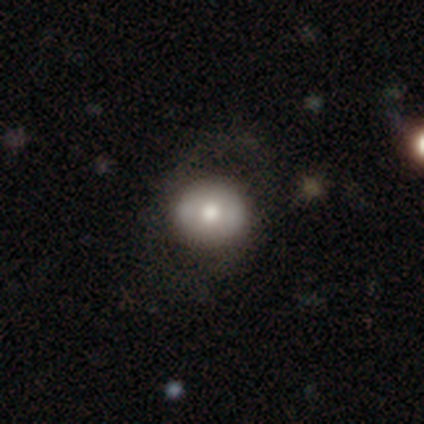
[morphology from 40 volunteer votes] smooth 55%, featured or disk 40%, star or artifact 5%. Down the decision tree: how rounded — round (86%); merging — none (53%).